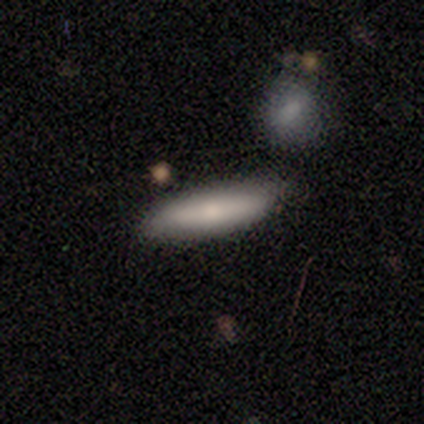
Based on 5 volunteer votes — This is clearly a smooth galaxy (80%). How rounded: possibly in between (50%, tied with cigar-shaped). Merging: clearly none (80%).